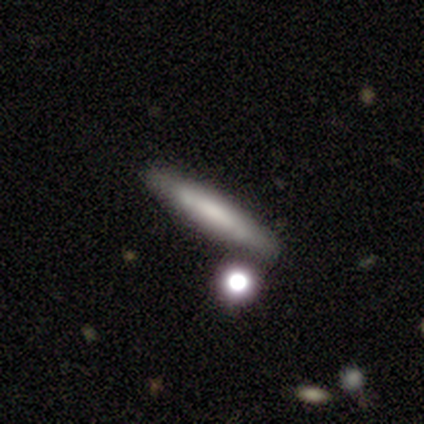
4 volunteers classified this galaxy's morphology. Smooth or featured?
  - featured or disk: 75% *
  - smooth: 25%
  - star or artifact: 0%
Edge-on disk?
  - yes: 67% *
  - no: 33%
Edge-on bulge?
  - none: 100% *
  - boxy: 0%
  - rounded: 0%
Merging?
  - none: 75% *
  - minor disturbance: 25%
  - major disturbance: 0%
  - merger: 0%